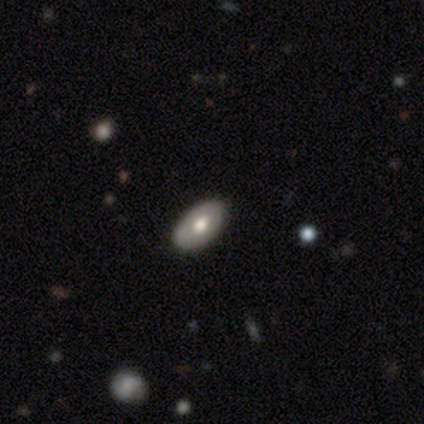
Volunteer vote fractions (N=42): A smooth galaxy with no disk features (50%) that is in between round and cigar-shaped (100%). Merging: none (90%).